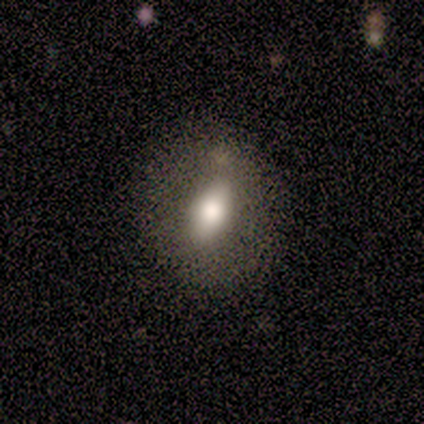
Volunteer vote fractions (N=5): Volunteers were most divided on "smooth or featured": smooth: 60%, featured or disk: 40%, star or artifact: 0%. More confident: how rounded — in between (100%); merging — none (80%).